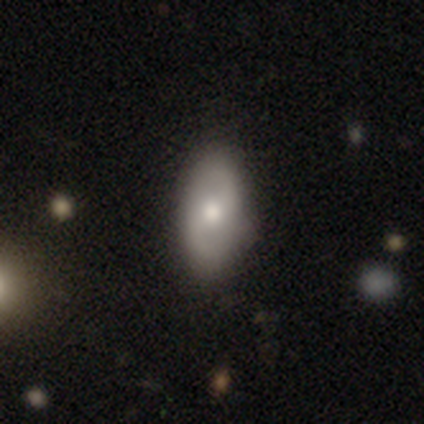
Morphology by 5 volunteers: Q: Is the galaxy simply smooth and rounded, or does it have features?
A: smooth — 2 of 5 (40%, tied with star or artifact).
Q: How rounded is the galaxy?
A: round — 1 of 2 (50%, tied with in between).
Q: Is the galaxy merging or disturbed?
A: none — 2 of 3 (67%).